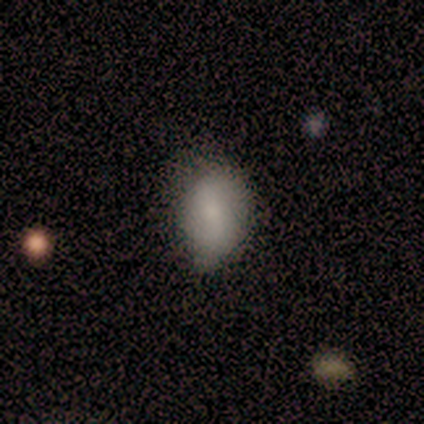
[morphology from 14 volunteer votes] smooth-or-featured: smooth: 71% | featured or disk: 21% | star or artifact: 7%
  how-rounded: in between: 80% | round: 20% | cigar-shaped: 0%
  merging: none: 46% (tied) | minor disturbance: 46% (tied) | major disturbance: 8% | merger: 0%